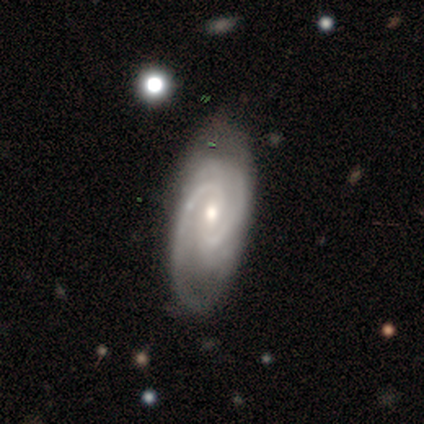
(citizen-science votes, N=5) featured or disk 80%, smooth 20%, star or artifact 0%. Down the decision tree: edge-on disk — no (100%); bar — no (50%); spiral arms — yes (100%); spiral arm count — 2 (100%); spiral winding — tight (50%, tied with medium); bulge size — small (75%); merging — none (100%).